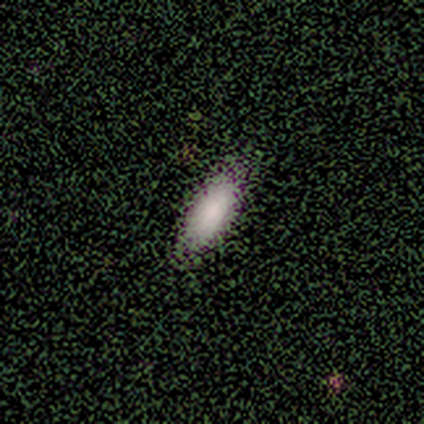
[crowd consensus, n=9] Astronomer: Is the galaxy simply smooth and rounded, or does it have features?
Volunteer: smooth — 78%.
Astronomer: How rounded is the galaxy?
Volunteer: in between — 86%.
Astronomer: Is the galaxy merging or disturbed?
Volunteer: none — 86%.